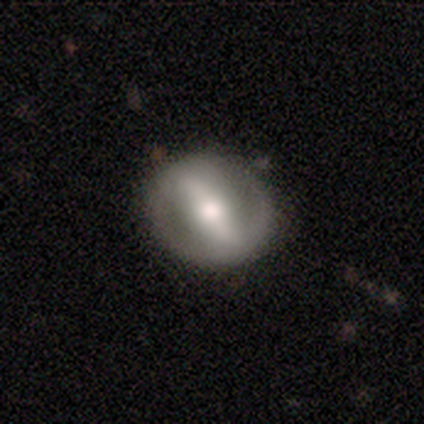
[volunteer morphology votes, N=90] smooth-or-featured: featured or disk: 63% | smooth: 31% | star or artifact: 6%
  disk-edge-on: no: 89% | yes: 11%
    bar: strong: 76% | weak: 18% | no: 6%
    has-spiral-arms: yes: 53% | no: 47%
      spiral-winding: medium: 48% | loose: 30% | tight: 22%
      spiral-arm-count: 2: 81% | can't tell: 15% | 3: 4% | 1: 0% | 4: 0% | more than 4: 0%
    bulge-size: moderate: 69% | large: 14% | small: 14% | dominant: 4% | none: 0%
  merging: none: 78% | minor disturbance: 14% | major disturbance: 7% | merger: 1%